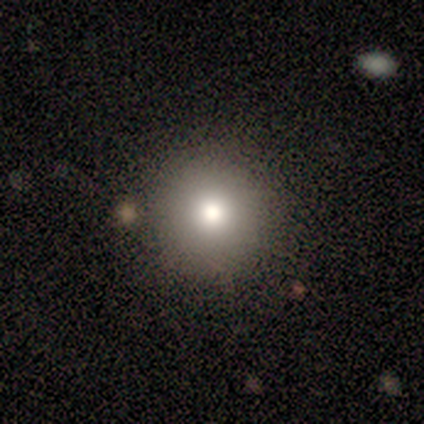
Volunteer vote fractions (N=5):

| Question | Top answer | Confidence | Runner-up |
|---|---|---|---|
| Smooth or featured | smooth | 60% | featured or disk (40%) |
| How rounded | round | 100% | — |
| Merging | none | 100% | — |